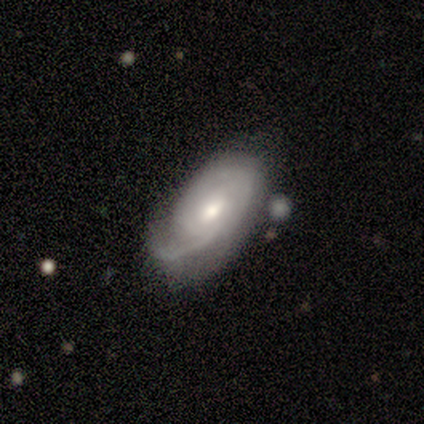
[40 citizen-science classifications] A featured or disk galaxy (68%) with a weak bar (52%), tight (54%) spiral arms (96%) and a moderate central bulge (63%).

Vote fractions:
- Smooth or featured? featured or disk: 68% / smooth: 28% / star or artifact: 5%
- Edge-on disk? no: 100% / yes: 0%
- Bar? weak: 52% / no: 41% / strong: 7%
- Spiral arms? yes: 96% / no: 4%
- Spiral winding? tight: 54% / medium: 31% / loose: 15%
- Spiral arm count? can't tell: 42% / 1: 38% / 2: 19% / 3: 0% / 4: 0% / more than 4: 0%
- Bulge size? moderate: 63% / small: 33% / large: 4% / dominant: 0% / none: 0%
- Merging? none: 37% / minor disturbance: 26% / major disturbance: 26% / merger: 11%